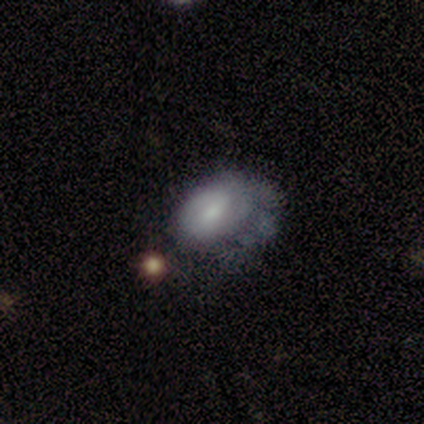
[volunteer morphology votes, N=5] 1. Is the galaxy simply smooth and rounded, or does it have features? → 60% smooth, 40% featured or disk, 0% star or artifact.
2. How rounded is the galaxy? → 67% in between, 33% round, 0% cigar-shaped.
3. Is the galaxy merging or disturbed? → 40% minor disturbance, 20% none, 20% major disturbance, 20% merger.